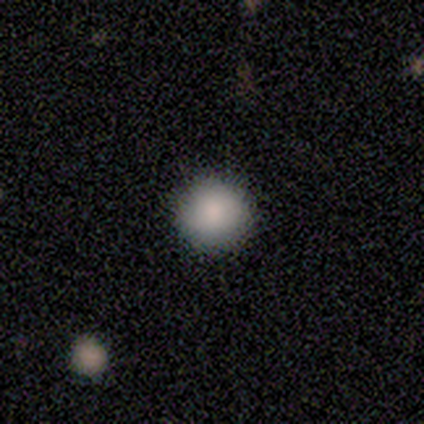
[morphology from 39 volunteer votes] This is clearly a smooth galaxy (87%). How rounded: clearly round (97%). Merging: clearly none (89%).